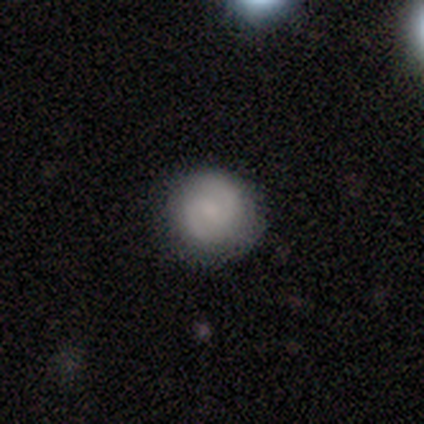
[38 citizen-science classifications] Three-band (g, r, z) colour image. It shows a featured or disk galaxy (55%) with a weak bar (62%), 2 (95%) medium (53%) spiral arms (90%) and no central bulge (48%). Merging: none (89%).